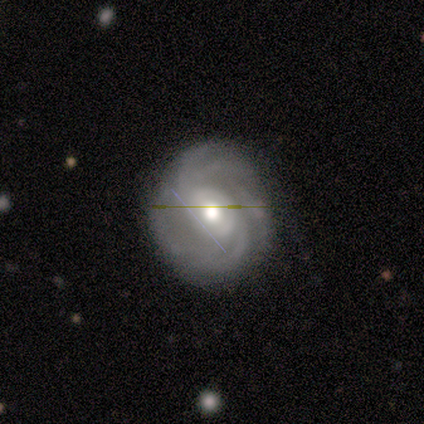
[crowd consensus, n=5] Volunteers were most divided on "spiral arm count" (4-way tie): 2: 25%, 3: 25%, 4: 25%, can't tell: 25%, 1: 0%, more than 4: 0%. More confident: smooth or featured — featured or disk (100%); spiral arms — yes (100%); bulge size — moderate (100%); edge-on disk — no (80%); merging — none (80%); bar — strong (50%); spiral winding — loose (50%).